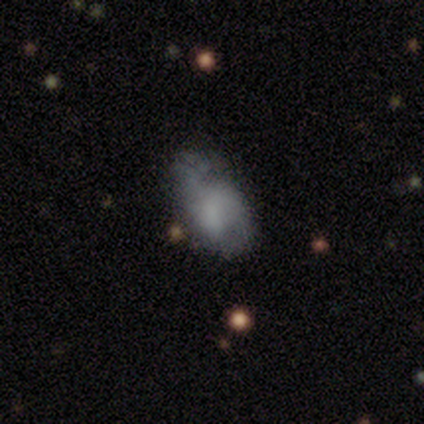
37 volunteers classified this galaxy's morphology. Smooth or featured?
  - smooth: 54% *
  - featured or disk: 38%
  - star or artifact: 8%
How rounded?
  - in between: 95% *
  - round: 5%
  - cigar-shaped: 0%
Merging?
  - none: 47% *
  - minor disturbance: 35%
  - major disturbance: 12%
  - merger: 6%